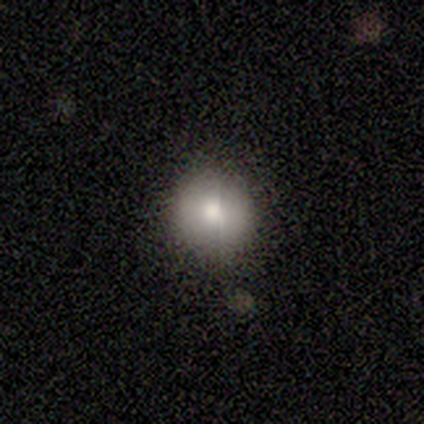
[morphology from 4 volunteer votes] Volunteers were most divided on "merging": none: 75%, minor disturbance: 25%, major disturbance: 0%, merger: 0%. More confident: smooth or featured — smooth (100%); how rounded — round (100%).